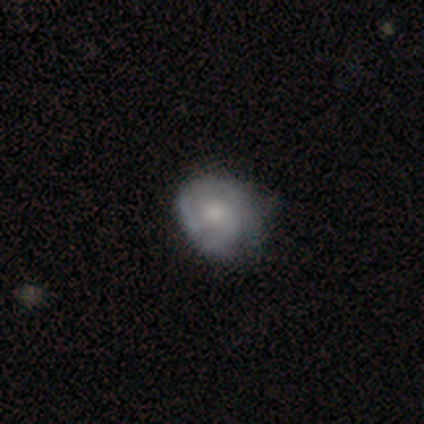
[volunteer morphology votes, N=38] Smooth or featured? featured or disk (63%)
Edge-on disk? no (96%)
Bar? no (87%)
Spiral arms? yes (78%)
Spiral winding? tight (72%)
Spiral arm count? can't tell (39%)
Bulge size? moderate (61%)
Merging? none (68%)